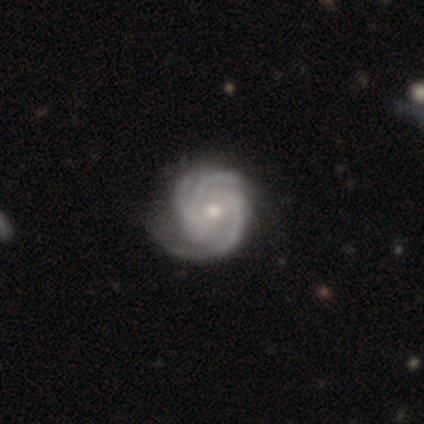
Overall: featured or disk (100%). Edge-on disk: no (100%). Bar: weak (40%, tied with no). Spiral arms: yes (100%). Spiral arm count: 3 (40%, tied with 4). Spiral winding: tight (60%; medium 40%). Bulge size: small (80%). Merging: none (80%).